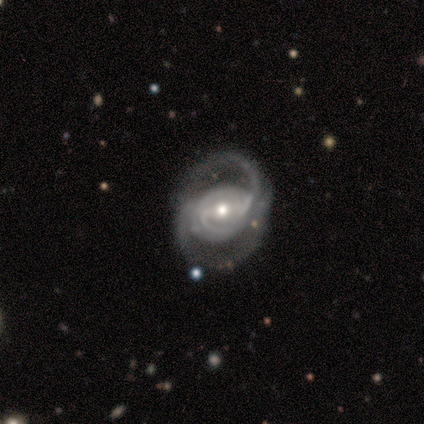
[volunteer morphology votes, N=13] Volunteers were most divided on "bar": no: 38%, strong: 31%, weak: 31%. Remaining: smooth or featured — featured or disk (100%); edge-on disk — no (100%); spiral arms — yes (92%); merging — none (77%); spiral arm count — 2 (75%); bulge size — small (54%); spiral winding — loose (42%).